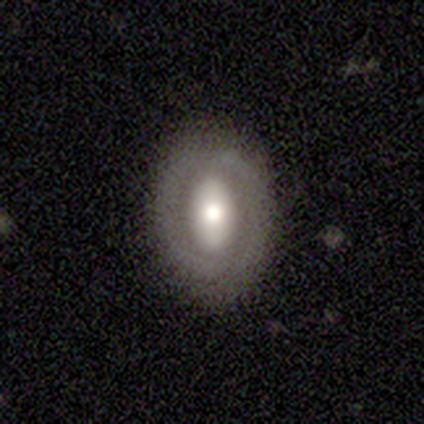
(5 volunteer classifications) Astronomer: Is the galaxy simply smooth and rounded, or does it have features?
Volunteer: featured or disk — 60% (runner-up: smooth, 40%).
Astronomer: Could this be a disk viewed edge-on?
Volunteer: no — 100%.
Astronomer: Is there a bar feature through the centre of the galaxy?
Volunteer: no — 67%.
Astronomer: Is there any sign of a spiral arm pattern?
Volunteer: no — 67%.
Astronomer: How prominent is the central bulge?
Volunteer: dominant — 33%, tied with moderate and small at 33%.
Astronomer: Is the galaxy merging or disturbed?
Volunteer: none — 100%.